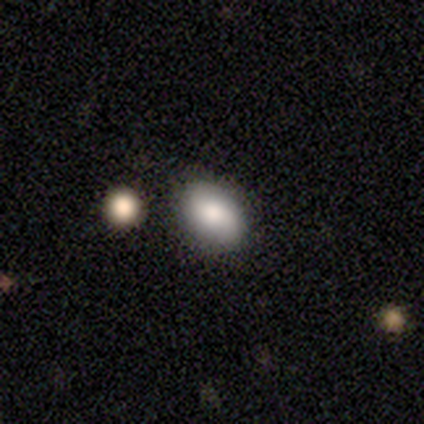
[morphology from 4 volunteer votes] type=smooth (100%); roundness=in between (100%); merging=none (100%).